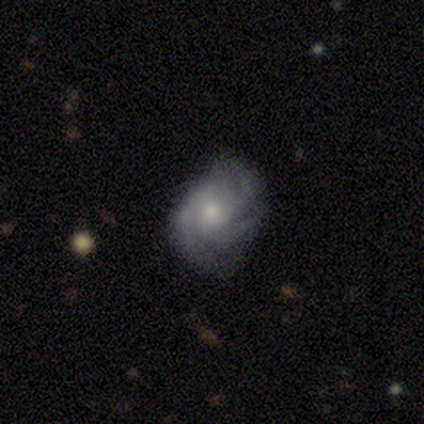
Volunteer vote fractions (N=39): featured or disk 74%, smooth 13%, star or artifact 13%. Down the decision tree: edge-on disk — no (100%); bar — no (79%); spiral arms — yes (90%); spiral arm count — 3 (73%); spiral winding — tight (50%, tied with medium); bulge size — moderate (48%, tied with small); merging — none (71%).